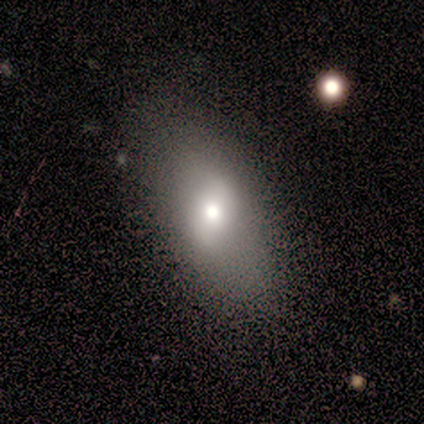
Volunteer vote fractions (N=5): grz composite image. It shows a featured or disk galaxy (60%) with a weak bar (100%), no spiral arms (100%) and a moderate central bulge (100%). Merging: none (100%).